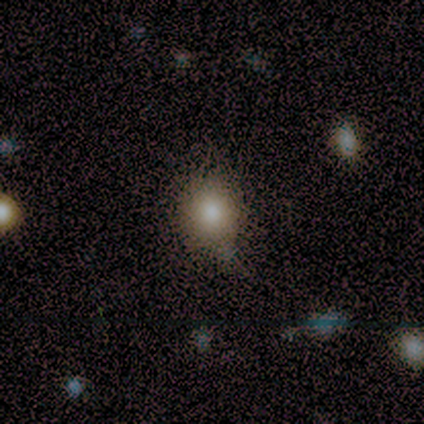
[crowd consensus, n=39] A smooth galaxy with no disk features (77%) that is round (67%). Merging: none (65%).